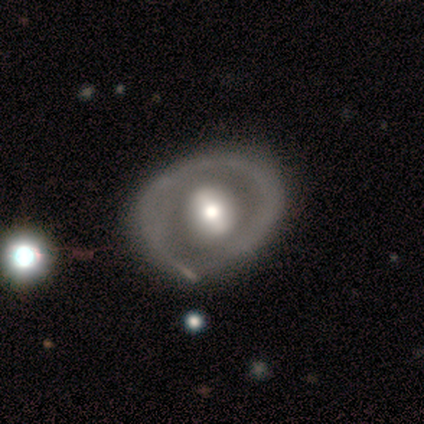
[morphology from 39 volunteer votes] featured or disk 79%, smooth 15%, star or artifact 5%. Down the decision tree: edge-on disk — no (94%); bar — no (55%); spiral arms — no (90%); bulge size — moderate (62%); merging — none (62%).